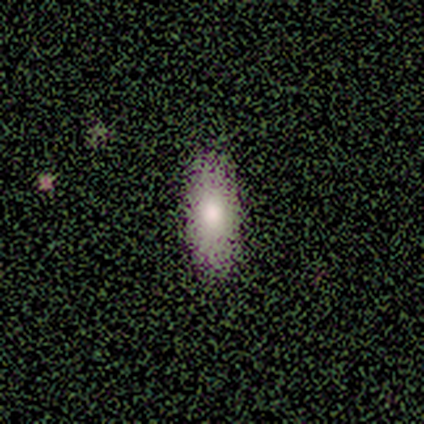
This appears to be a smooth galaxy with no disk features (88%) that is in between round and cigar-shaped (100%). Merging: none (88%).